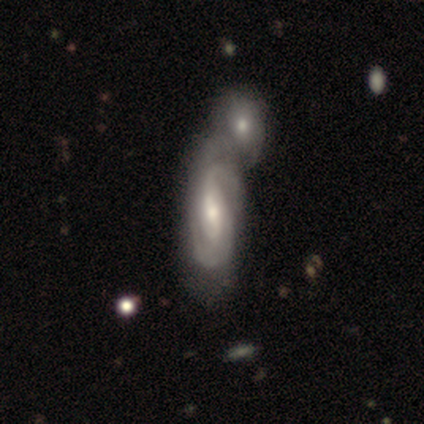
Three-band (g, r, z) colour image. It shows a featured or disk galaxy (100%) with a strong bar (67%), 2 (100%) tight (67%) spiral arms (100%) and a small central bulge (67%). Merging: merger (67%).